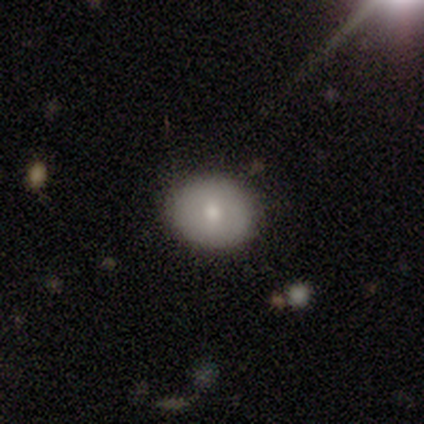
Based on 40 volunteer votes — Smooth or featured? 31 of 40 (78%) said smooth. How rounded? 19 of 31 (61%) said round. Merging? 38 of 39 (97%) said none.